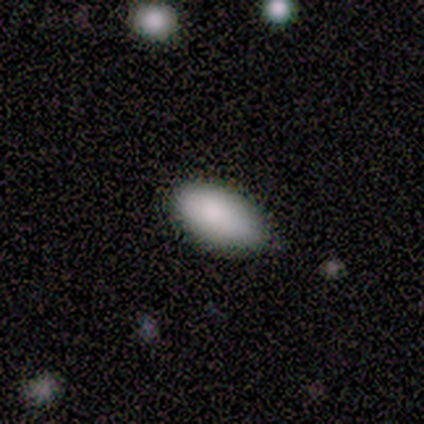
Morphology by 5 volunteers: smooth 80%, star or artifact 20%, featured or disk 0%. Down the decision tree: how rounded — in between (100%); merging — none (50%, tied with minor disturbance).